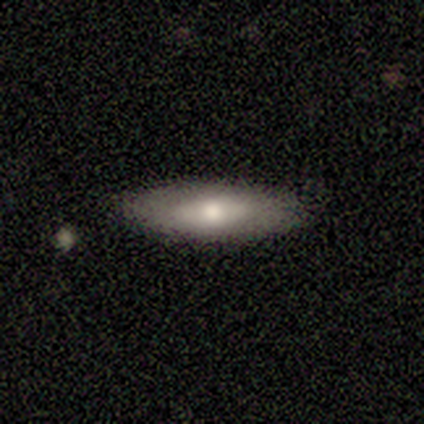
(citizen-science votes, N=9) This appears to be a smooth galaxy with no disk features (100%) that is in between round and cigar-shaped (56%). Merging: none (100%).